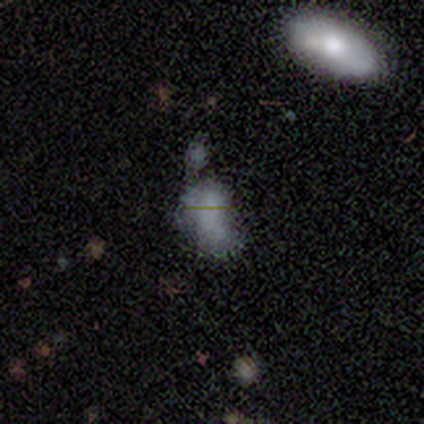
Q: Smooth or featured?
A: smooth (80%); runner-up: featured or disk (20%)
Q: How rounded?
A: in between (100%)
Q: Merging?
A: major disturbance (60%); runner-up: minor disturbance (40%)